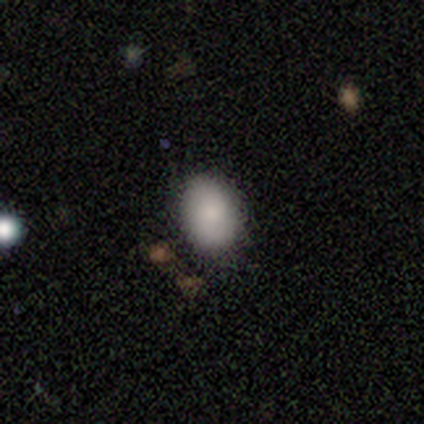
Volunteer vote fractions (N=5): smooth 100%, featured or disk 0%, star or artifact 0%. Down the decision tree: how rounded — in between (80%); merging — none (60%).